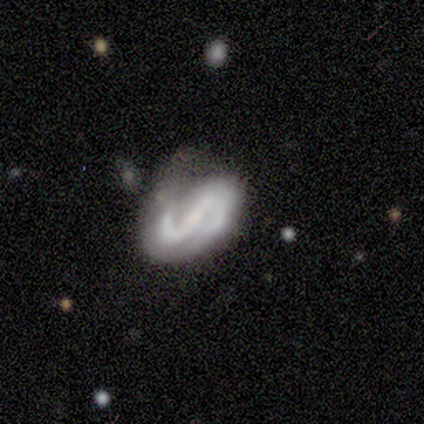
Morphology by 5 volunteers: A featured or disk galaxy (100%) with a weak bar (60%), 2 (100%) medium (40%, tied with loose) spiral arms (100%) and a moderate central bulge (40%, tied with small). Merging: none (80%).